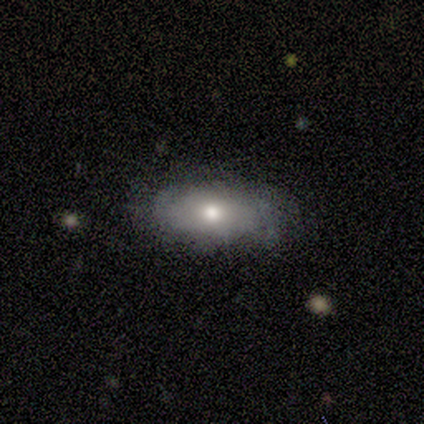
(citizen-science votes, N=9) A smooth galaxy with no disk features (44%) that is in between round and cigar-shaped (100%). Merging: none (71%).